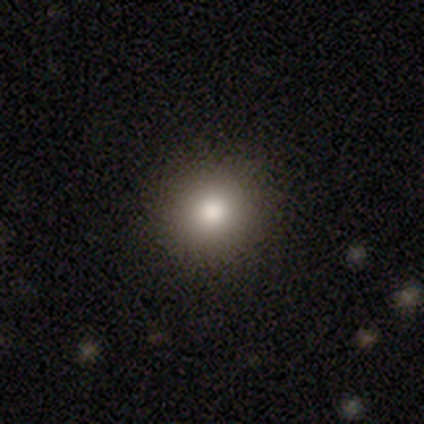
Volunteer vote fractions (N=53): A smooth galaxy with no disk features (83%) that is round (95%).

Vote fractions:
- Smooth or featured? smooth: 83% / star or artifact: 9% / featured or disk: 8%
- How rounded? round: 95% / in between: 5% / cigar-shaped: 0%
- Merging? none: 92% / major disturbance: 4% / minor disturbance: 2% / merger: 2%